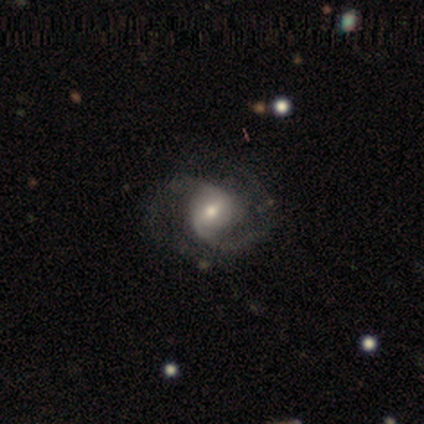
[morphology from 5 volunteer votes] Smooth or featured? featured or disk (80%)
Edge-on disk? no (100%)
Bar? weak (50%, tied with no)
Spiral arms? yes (100%)
Spiral winding? tight (50%, tied with medium)
Spiral arm count? 2 (100%)
Bulge size? moderate (50%)
Merging? none (80%)